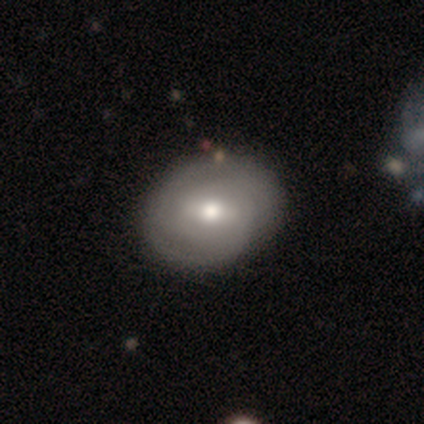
Morphology: type=featured or disk (74%); edge-on=no (90%); bar=weak (69%); spiral arms=yes (85%); winding=tight (73%); arm count=2 (64%); bulge=moderate (65%); merging=none (59%).